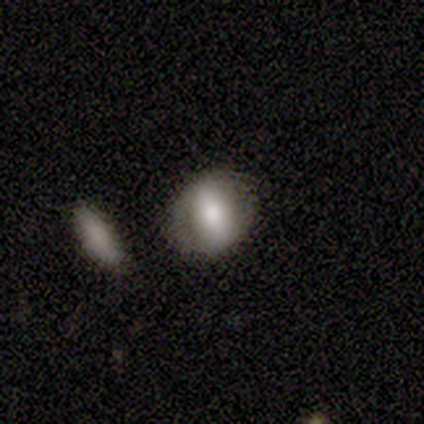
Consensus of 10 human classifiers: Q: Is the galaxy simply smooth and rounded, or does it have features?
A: smooth — 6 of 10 (60%).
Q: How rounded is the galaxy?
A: in between — 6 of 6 (100%).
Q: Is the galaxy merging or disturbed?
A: none — 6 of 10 (60%).